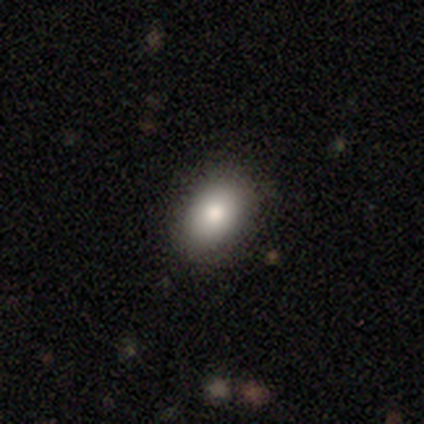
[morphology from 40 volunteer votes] smooth-or-featured: smooth: 75% | featured or disk: 20% | star or artifact: 5%
  how-rounded: in between: 80% | round: 17% | cigar-shaped: 3%
  merging: none: 89% | minor disturbance: 8% | major disturbance: 3% | merger: 0%